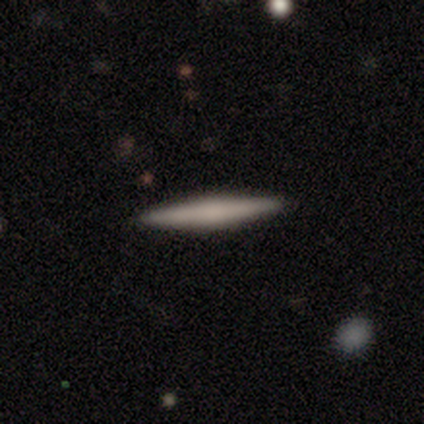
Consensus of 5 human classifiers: Smooth or featured? smooth (60%)
How rounded? cigar-shaped (100%)
Merging? none (100%)